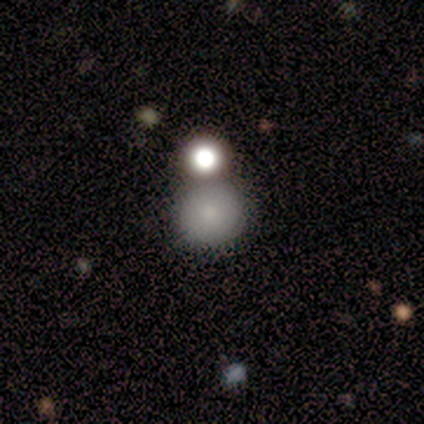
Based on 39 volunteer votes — Overall: smooth (79%). How rounded: round (87%). Merging: none (67%).